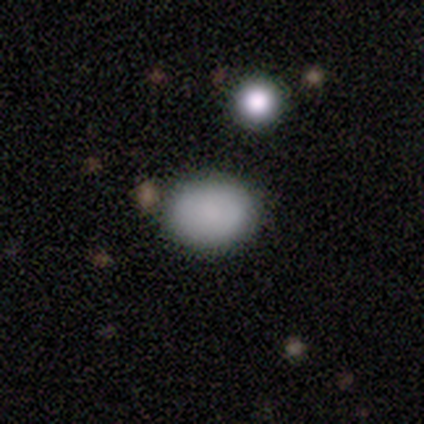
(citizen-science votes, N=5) smooth_or_featured: smooth (p=1.00)
how_rounded: round (p=0.60) [alt: in between p=0.40]
merging: none (p=1.00)